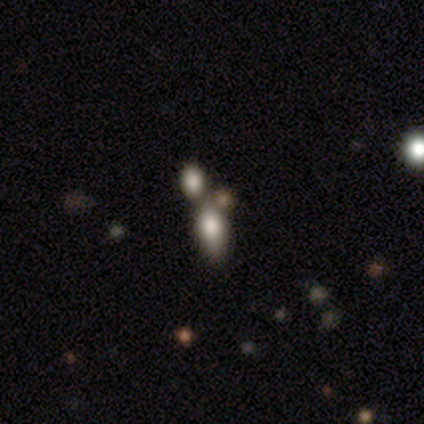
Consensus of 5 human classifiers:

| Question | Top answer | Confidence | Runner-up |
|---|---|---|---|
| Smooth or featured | smooth | 100% | — |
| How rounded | in between | 100% | — |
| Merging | merger | 80% | none (20%) |